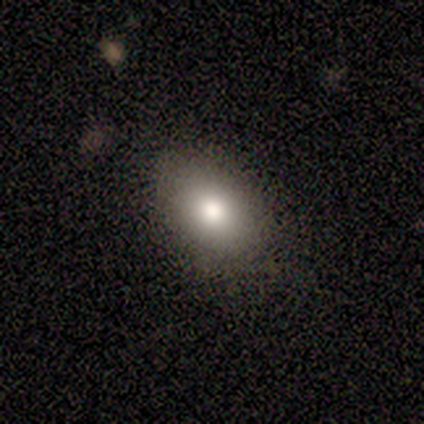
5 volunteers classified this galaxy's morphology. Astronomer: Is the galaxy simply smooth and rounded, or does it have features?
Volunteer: smooth — 80%.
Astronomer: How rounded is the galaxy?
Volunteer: in between — 100%.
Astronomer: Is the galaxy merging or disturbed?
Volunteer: minor disturbance — 60% (runner-up: none, 40%).